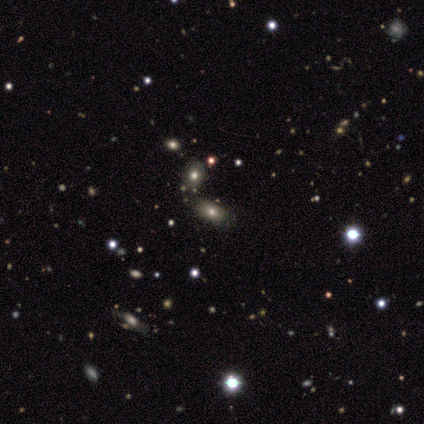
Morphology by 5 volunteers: Smooth or featured: smooth — 100%
How rounded: in between — 60% (round — 40%)
Merging: none — 100%